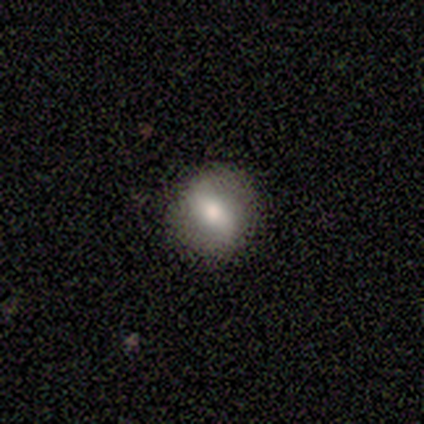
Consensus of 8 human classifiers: This is marginally a smooth galaxy (38%, tied with featured or disk). How rounded: clearly round (100%). Merging: likely none (67%).